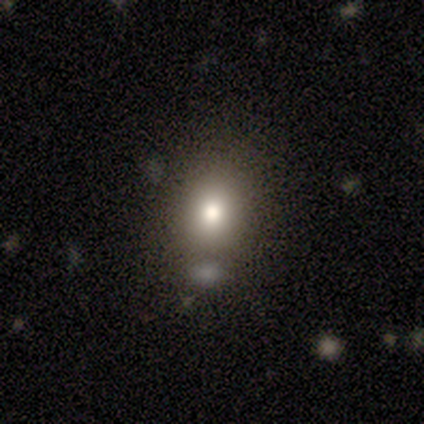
Morphology: type=smooth (60%); roundness=round (100%); merging=none (60%).